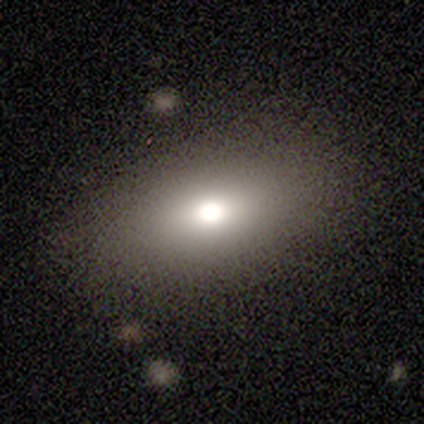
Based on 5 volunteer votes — This is likely a smooth galaxy (60%). How rounded: clearly in between (100%). Merging: likely none (60%).